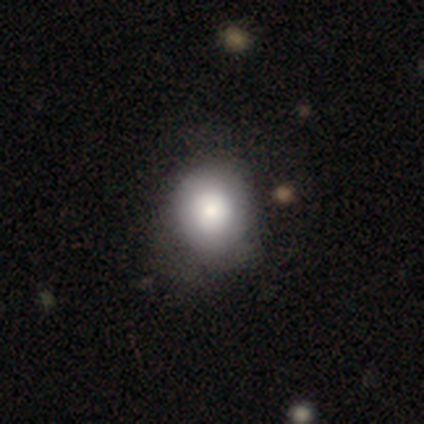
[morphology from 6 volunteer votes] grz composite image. It shows a smooth galaxy with no disk features (67%) that is round (75%). Merging: none (100%).